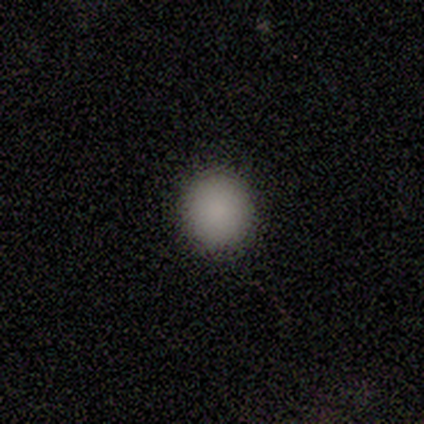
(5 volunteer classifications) Smooth or featured? smooth (100%)
How rounded? round (80%)
Merging? none (100%)